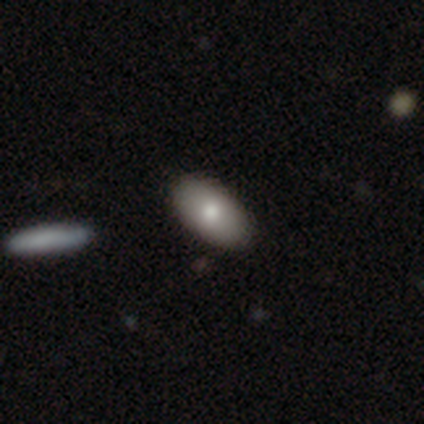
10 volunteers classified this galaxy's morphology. Smooth or featured: smooth — 80% (featured or disk — 20%)
How rounded: in between — 88% (cigar-shaped — 12%)
Merging: none — 90% (minor disturbance — 10%)